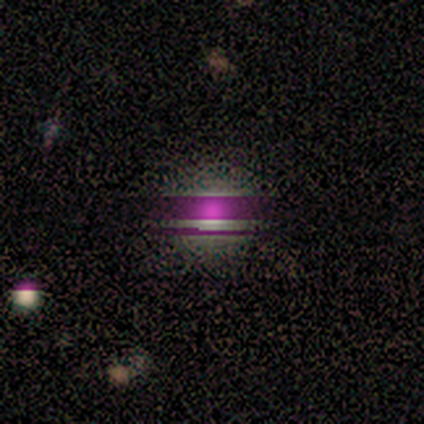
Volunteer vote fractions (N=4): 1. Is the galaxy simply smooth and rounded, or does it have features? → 75% star or artifact, 25% smooth, 0% featured or disk.